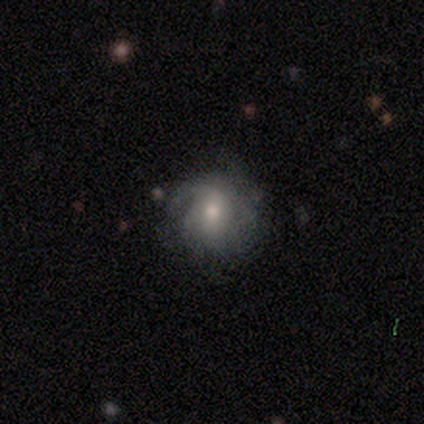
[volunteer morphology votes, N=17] Overall: featured or disk (76%). Edge-on disk: no (92%). Bar: no (50%; weak 42%). Spiral arms: yes (83%). Spiral arm count: can't tell (70%). Spiral winding: tight (50%; medium 30%). Bulge size: moderate (75%). Merging: none (53%; minor disturbance 40%).